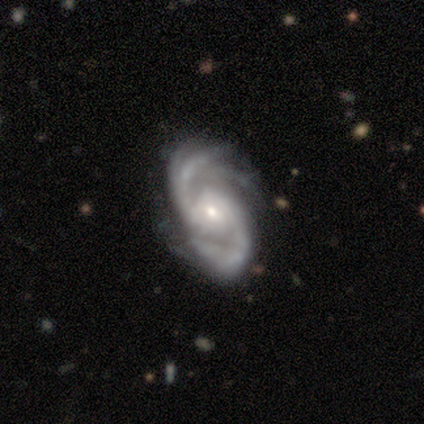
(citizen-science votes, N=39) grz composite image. It shows a featured or disk galaxy (100%) with no bar (59%), 2 (75%) medium (67%) spiral arms (97%) and a small central bulge (70%). Merging: none (56%).